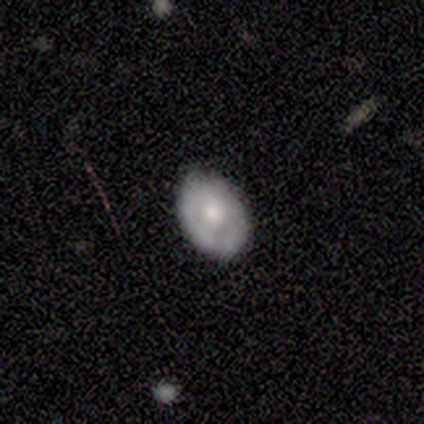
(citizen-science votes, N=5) A smooth galaxy with no disk features (80%) that is in between round and cigar-shaped (75%). Merging: none (100%).